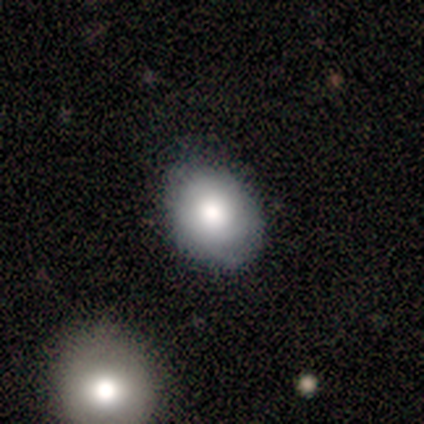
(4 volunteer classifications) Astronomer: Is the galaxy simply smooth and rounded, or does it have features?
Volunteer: smooth — 100%.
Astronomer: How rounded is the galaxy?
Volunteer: round — 50%, tied with in between at 50%.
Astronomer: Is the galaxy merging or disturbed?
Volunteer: none — 50%.